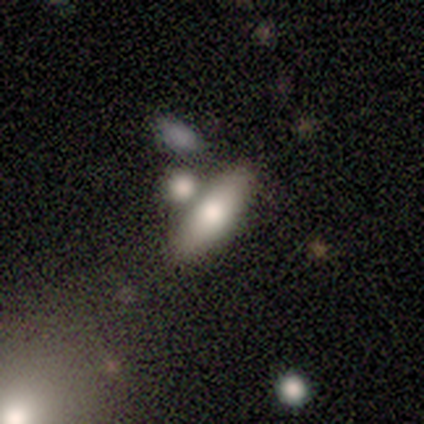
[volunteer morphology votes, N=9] type=smooth (67%); roundness=in between (50%, tied with cigar-shaped); merging=none (56%).